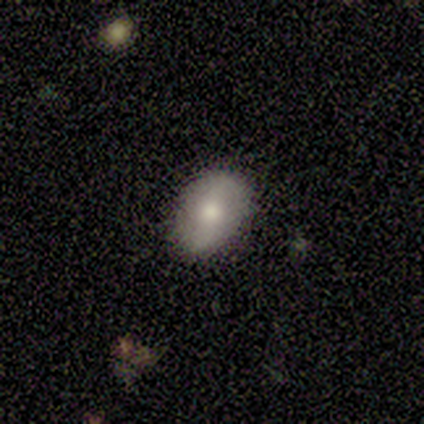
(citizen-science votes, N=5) A featured or disk galaxy (80%) with a strong bar (50%), 2 (67%) medium (67%) spiral arms (75%) and a moderate central bulge (75%).

Vote fractions:
- Smooth or featured? featured or disk: 80% / smooth: 20% / star or artifact: 0%
- Edge-on disk? no: 100% / yes: 0%
- Bar? strong: 50% / weak: 25% / no: 25%
- Spiral arms? yes: 75% / no: 25%
- Spiral winding? medium: 67% / loose: 33% / tight: 0%
- Spiral arm count? 2: 67% / 1: 33% / 3: 0% / 4: 0% / more than 4: 0% / can't tell: 0%
- Bulge size? moderate: 75% / dominant: 25% / large: 0% / small: 0% / none: 0%
- Merging? none: 60% / minor disturbance: 20% / major disturbance: 20% / merger: 0%